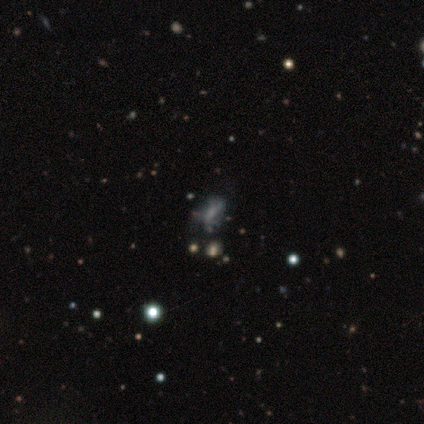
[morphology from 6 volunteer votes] smooth_or_featured: smooth (p=0.50) [alt: featured or disk p=0.33]
how_rounded: in between (p=0.67) [alt: cigar-shaped p=0.33]
merging: none (p=0.60) [alt: major disturbance p=0.40]